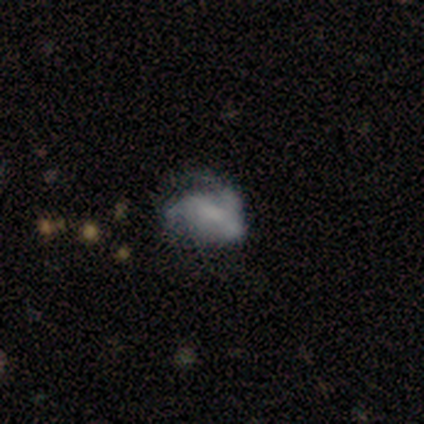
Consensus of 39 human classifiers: Overall: featured or disk (64%; smooth 26%). Edge-on disk: no (100%). Bar: no (48%; weak 44%). Spiral arms: yes (56%; no 44%). Spiral arm count: can't tell (43%; 2 36%). Spiral winding: loose (57%; medium 29%). Bulge size: none (44%; small 28%). Merging: major disturbance (40%; none 34%).